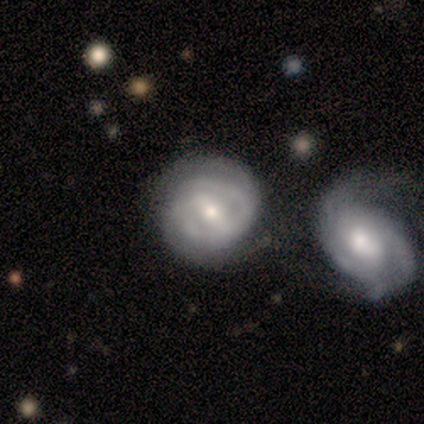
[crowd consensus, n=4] smooth_or_featured: featured or disk (p=1.00)
disk_edge_on: no (p=1.00)
bar: weak (p=1.00)
has_spiral_arms: yes (p=1.00)
spiral_winding: tight (p=0.75) [alt: medium p=0.25]
spiral_arm_count: can't tell (p=0.50) [alt: 2 p=0.25]
bulge_size: moderate (p=0.50) [tied with: small p=0.50]
merging: none (p=0.75) [alt: merger p=0.25]